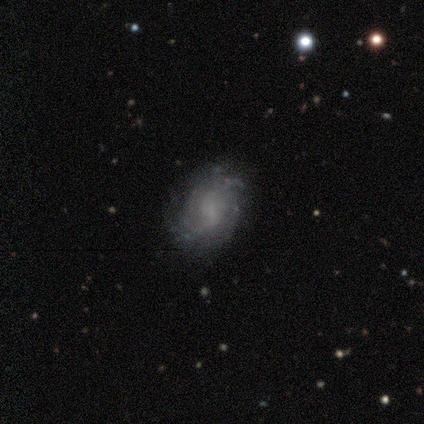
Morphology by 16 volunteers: Volunteers were most divided on "bar": weak: 50%, no: 40%, strong: 10%. Remaining: edge-on disk — no (100%); spiral winding — medium (100%); spiral arms — yes (70%); merging — none (67%); smooth or featured — featured or disk (62%); spiral arm count — 2 (57%); bulge size — small (40%).